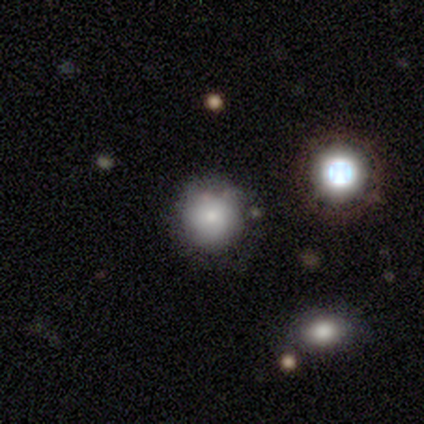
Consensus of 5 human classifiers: Consensus on every question: smooth or featured — smooth (100%); how rounded — round (100%); merging — none (100%).